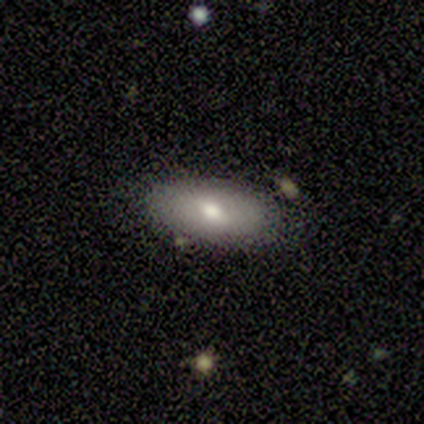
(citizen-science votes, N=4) smooth-or-featured: smooth: 75% | featured or disk: 25% | star or artifact: 0%
  how-rounded: in between: 100% | round: 0% | cigar-shaped: 0%
  merging: none: 50% | minor disturbance: 25% | major disturbance: 25% | merger: 0%